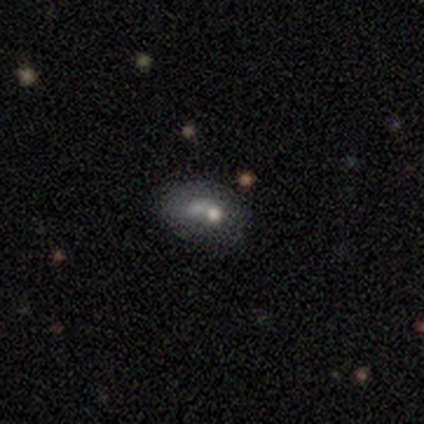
Overall: featured or disk (57%; smooth 43%). Edge-on disk: no (100%). Bar: no (100%). Spiral arms: no (100%). Bulge size: none (75%). Merging: none (43%; merger 29%).